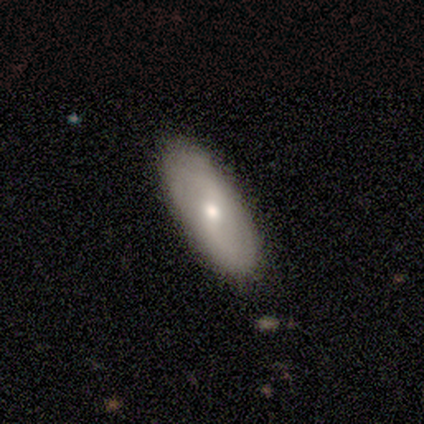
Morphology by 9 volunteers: smooth_or_featured: smooth (p=0.56) [alt: featured or disk p=0.44]
how_rounded: in between (p=0.80) [alt: round p=0.20]
merging: none (p=1.00)